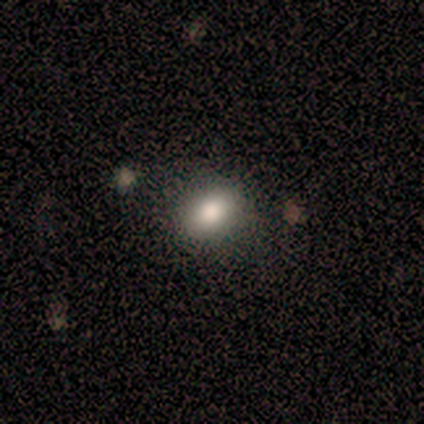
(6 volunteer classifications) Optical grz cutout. It shows a smooth galaxy with no disk features (83%) that is in between round and cigar-shaped (80%). Merging: none (80%).